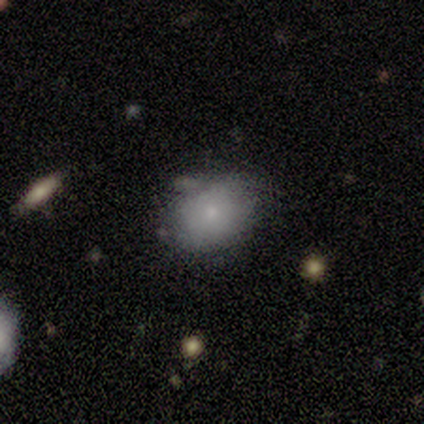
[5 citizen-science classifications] Smooth or featured? smooth (80%)
How rounded? round (75%)
Merging? none (80%)